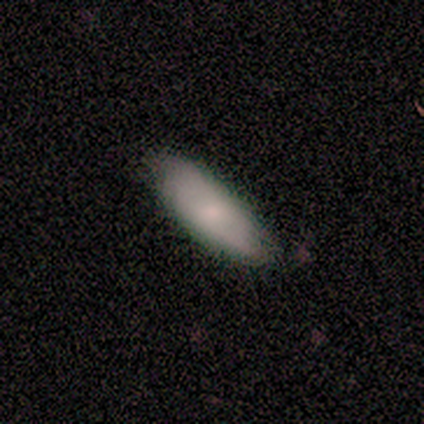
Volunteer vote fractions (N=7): Overall: smooth (86%). How rounded: in between (67%; cigar-shaped 33%). Merging: none (86%).